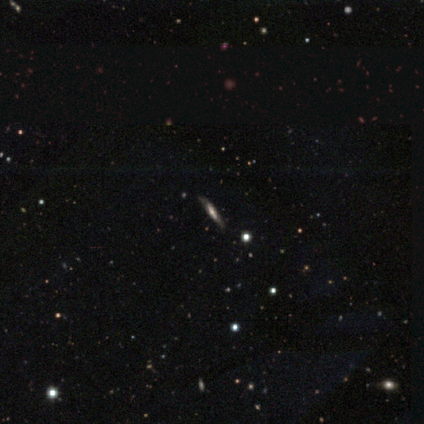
This is likely a featured or disk galaxy (60%). It is clearly viewed edge-on (100%). Edge-on bulge: likely rounded (67%). Merging: possibly none (50%, tied with minor disturbance).